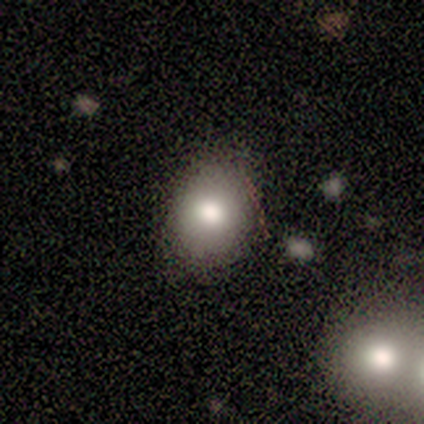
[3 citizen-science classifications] Smooth or featured?
  - smooth: 100% *
  - featured or disk: 0%
  - star or artifact: 0%
How rounded?
  - round: 67% *
  - in between: 33%
  - cigar-shaped: 0%
Merging?
  - none: 100% *
  - minor disturbance: 0%
  - major disturbance: 0%
  - merger: 0%